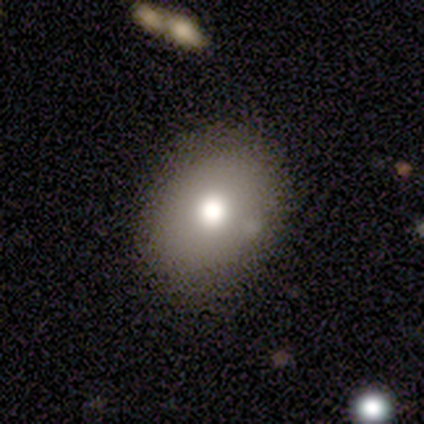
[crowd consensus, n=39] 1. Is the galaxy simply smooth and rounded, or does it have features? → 69% smooth, 15% featured or disk, 15% star or artifact.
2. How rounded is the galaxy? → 59% in between, 41% round, 0% cigar-shaped.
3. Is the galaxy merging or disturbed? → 94% none, 6% minor disturbance, 0% major disturbance, 0% merger.